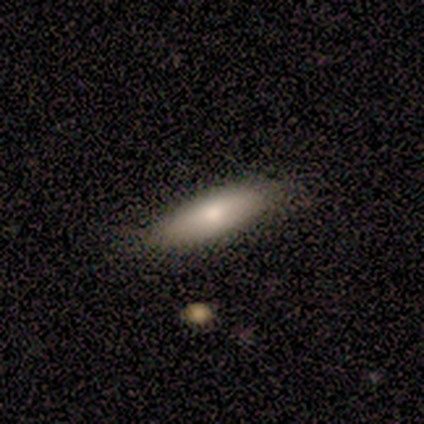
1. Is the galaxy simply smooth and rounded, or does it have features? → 64% smooth, 18% featured or disk, 18% star or artifact.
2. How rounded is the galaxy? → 57% cigar-shaped, 43% in between, 0% round.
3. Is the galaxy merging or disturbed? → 89% none, 11% minor disturbance, 0% major disturbance, 0% merger.